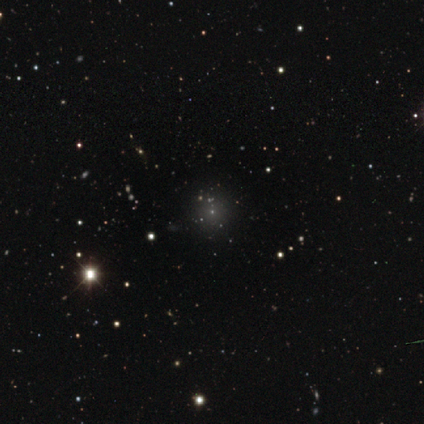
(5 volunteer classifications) smooth-or-featured: smooth: 60% | featured or disk: 20% | star or artifact: 20%
  how-rounded: round: 100% | in between: 0% | cigar-shaped: 0%
  merging: none: 50% (tied) | minor disturbance: 50% (tied) | major disturbance: 0% | merger: 0%